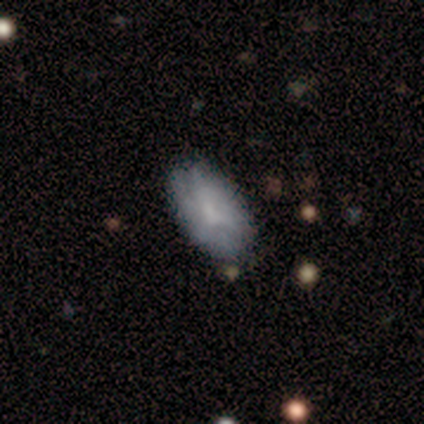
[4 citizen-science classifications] Smooth or featured? 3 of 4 (75%) said smooth. How rounded? 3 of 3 (100%) said in between. Merging? 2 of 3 (67%) said none.